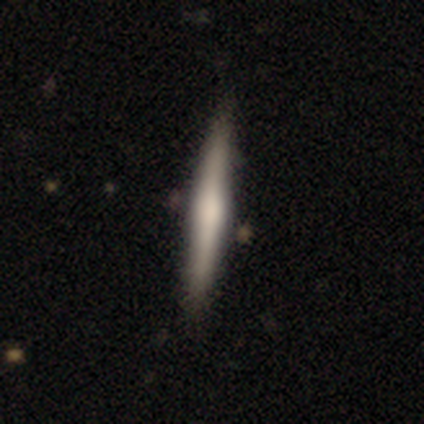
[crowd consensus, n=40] Smooth or featured: smooth — 55% (featured or disk — 40%)
How rounded: cigar-shaped — 91% (round — 5%)
Merging: none — 92% (minor disturbance — 5%)